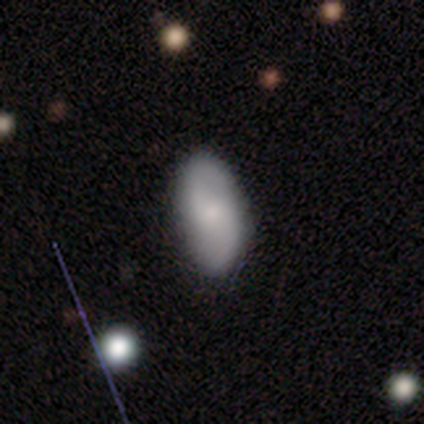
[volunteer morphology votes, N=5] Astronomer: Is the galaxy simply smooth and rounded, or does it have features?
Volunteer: smooth — 80%.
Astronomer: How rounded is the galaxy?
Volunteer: in between — 100%.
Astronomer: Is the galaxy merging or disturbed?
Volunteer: none — 60% (runner-up: minor disturbance, 40%).